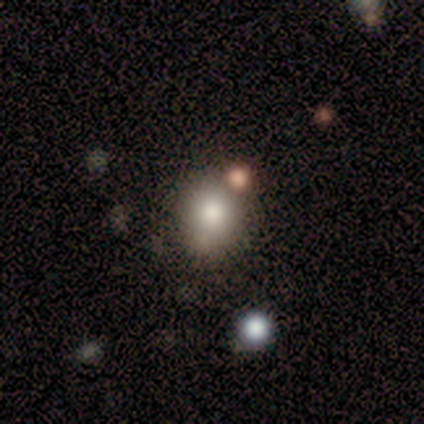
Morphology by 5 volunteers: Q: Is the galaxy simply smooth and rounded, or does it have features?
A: smooth — 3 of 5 (60%).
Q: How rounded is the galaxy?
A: round — 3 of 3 (100%).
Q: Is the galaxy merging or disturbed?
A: none — 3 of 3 (100%).